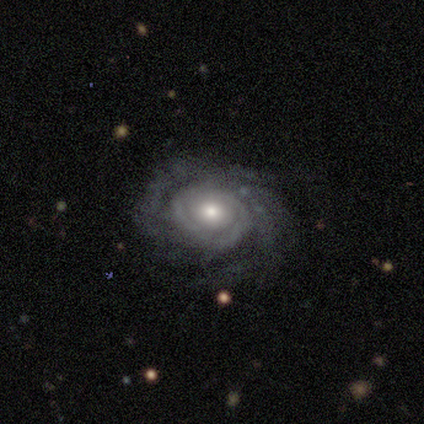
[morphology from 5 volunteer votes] Smooth or featured? featured or disk (100%)
Edge-on disk? no (100%)
Bar? no (80%)
Spiral arms? yes (100%)
Spiral winding? tight (60%)
Spiral arm count? more than 4 (40%)
Bulge size? moderate (60%)
Merging? none (40%, tied with minor disturbance)